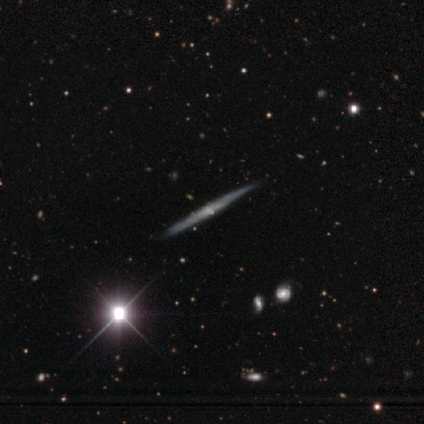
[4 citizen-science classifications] Smooth or featured: smooth — 75% (star or artifact — 25%)
How rounded: cigar-shaped — 100%
Merging: none — 100%